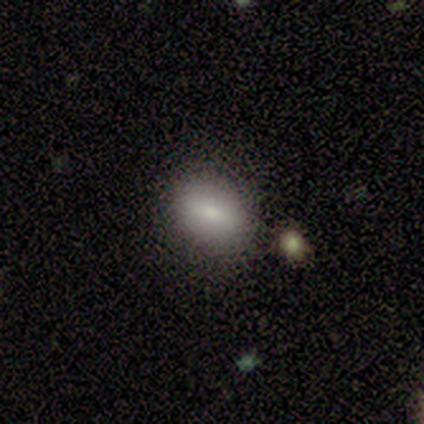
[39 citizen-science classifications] Q: Smooth or featured?
A: smooth (74%); runner-up: featured or disk (23%)
Q: How rounded?
A: in between (66%); runner-up: round (34%)
Q: Merging?
A: none (55%); runner-up: minor disturbance (16%)